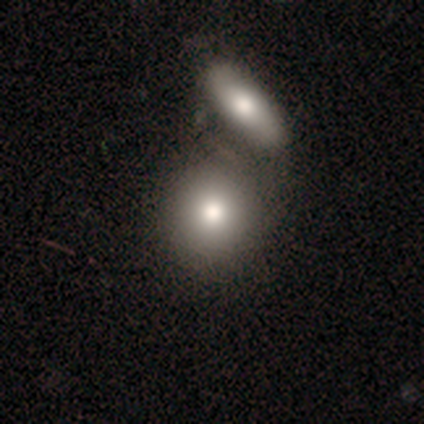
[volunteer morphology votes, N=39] Overall: smooth (72%). How rounded: round (79%). Merging: merger (49%; none 31%).